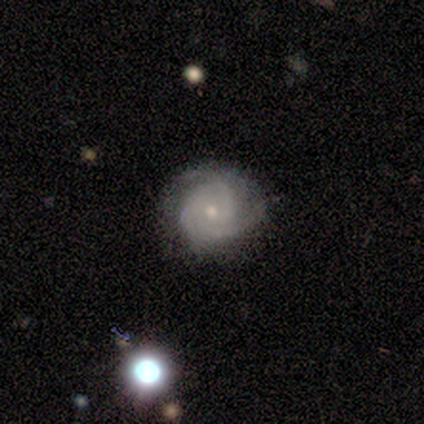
Overall: featured or disk (85%). Edge-on disk: no (100%). Bar: no (64%; weak 36%). Spiral arms: yes (82%). Spiral arm count: 3 (44%; can't tell 33%). Spiral winding: medium (56%; tight 44%). Bulge size: small (82%). Merging: none (67%; minor disturbance 33%).